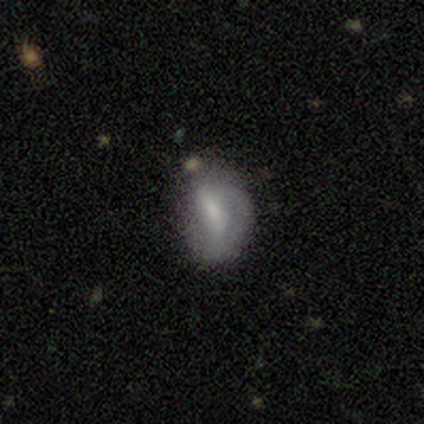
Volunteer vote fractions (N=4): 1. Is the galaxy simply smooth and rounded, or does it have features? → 100% smooth, 0% featured or disk, 0% star or artifact.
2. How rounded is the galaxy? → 75% in between, 25% cigar-shaped, 0% round.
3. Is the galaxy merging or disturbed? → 50% none (tied), 50% minor disturbance (tied), 0% major disturbance, 0% merger.